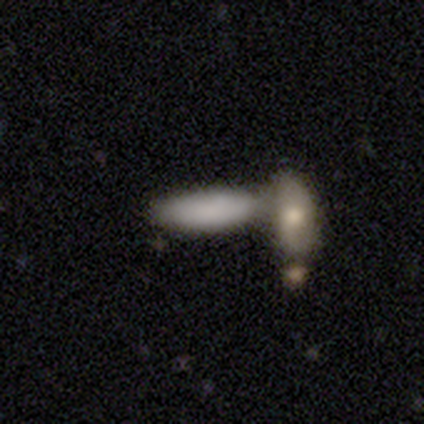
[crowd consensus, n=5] Overall: smooth (100%). How rounded: in between (60%; cigar-shaped 40%). Merging: merger (60%; none 40%).